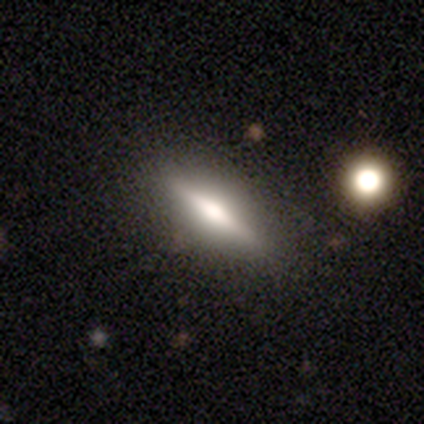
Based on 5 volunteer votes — Smooth or featured? 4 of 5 (80%) said smooth. How rounded? 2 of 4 (50%, tied with cigar-shaped) said in between. Merging? 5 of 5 (100%) said none.